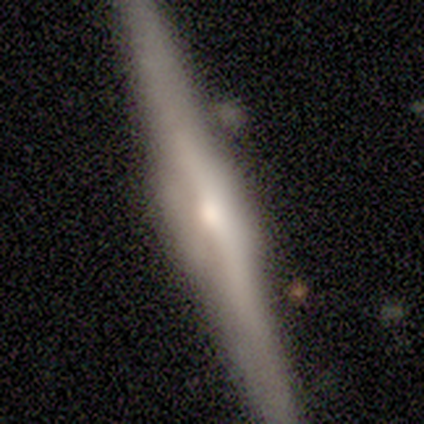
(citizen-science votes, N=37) A featured or disk galaxy (84%) viewed edge-on (97%) with a rounded central bulge (53%).

Vote fractions:
- Smooth or featured? featured or disk: 84% / smooth: 16% / star or artifact: 0%
- Edge-on disk? yes: 97% / no: 3%
- Edge-on bulge? rounded: 53% / boxy: 33% / none: 13%
- Merging? none: 76% / minor disturbance: 11% / merger: 8% / major disturbance: 5%